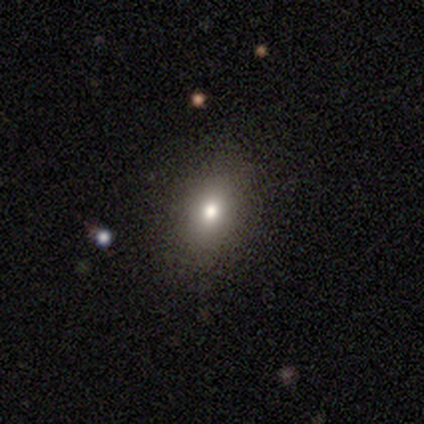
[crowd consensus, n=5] This appears to be a star or artifact, not a galaxy (60%).